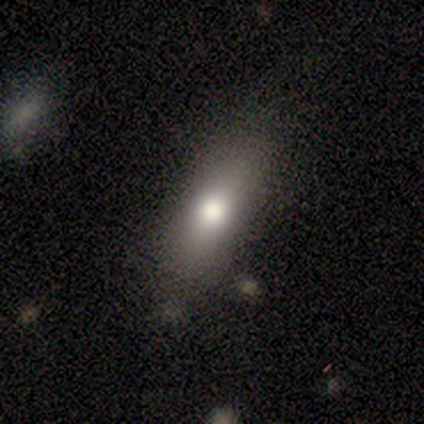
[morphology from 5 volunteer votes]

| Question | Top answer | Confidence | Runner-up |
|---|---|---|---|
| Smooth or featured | smooth | 80% | star or artifact (20%) |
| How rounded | in between | 50% | tied: cigar-shaped (50%) |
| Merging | none | 75% | major disturbance (25%) |